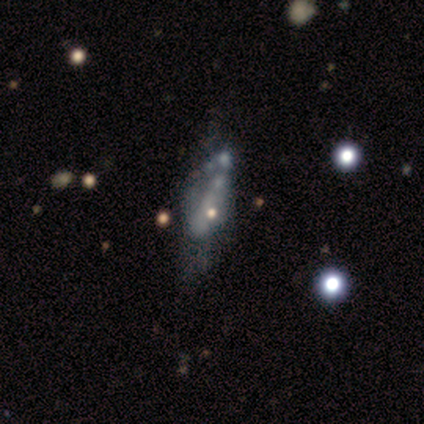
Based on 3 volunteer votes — A smooth galaxy with no disk features (33%, tied with featured or disk and star or artifact) that is cigar-shaped (100%). Merging: minor disturbance (100%).